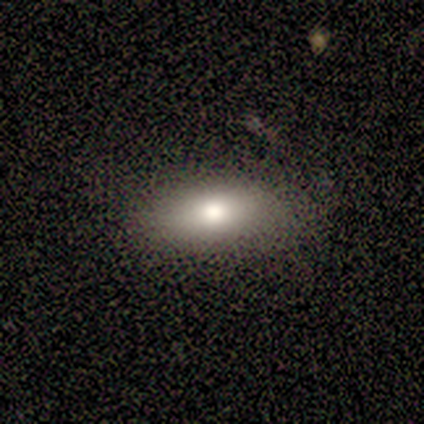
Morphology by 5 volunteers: Smooth or featured? 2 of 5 (40%, tied with star or artifact) said smooth. How rounded? 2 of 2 (100%) said in between. Merging? 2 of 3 (67%) said none.